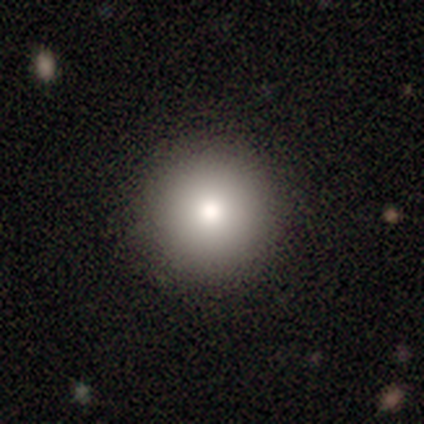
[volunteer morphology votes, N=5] A smooth galaxy with no disk features (80%) that is round (100%).

Vote fractions:
- Smooth or featured? smooth: 80% / featured or disk: 20% / star or artifact: 0%
- How rounded? round: 100% / in between: 0% / cigar-shaped: 0%
- Merging? none: 80% / minor disturbance: 20% / major disturbance: 0% / merger: 0%